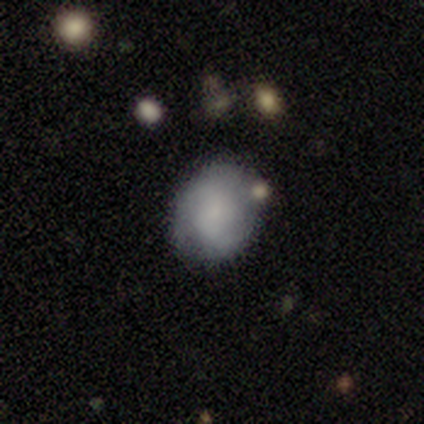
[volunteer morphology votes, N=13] Smooth or featured: smooth — 85% (featured or disk — 15%)
How rounded: round — 55% (in between — 45%)
Merging: none — 77% (minor disturbance — 15%)